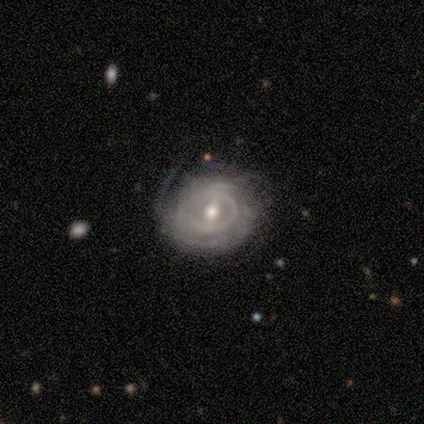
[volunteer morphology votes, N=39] A featured or disk galaxy (90%) with a weak bar (51%), tight (61%) spiral arms (80%) and a moderate central bulge (69%). Merging: none (68%).